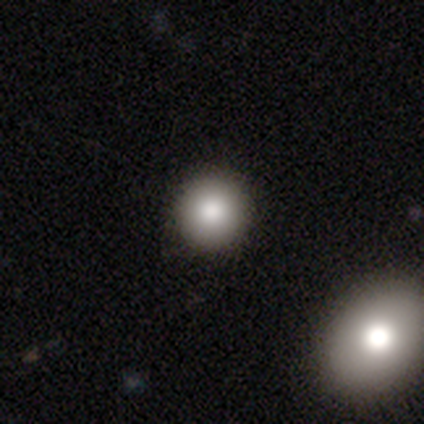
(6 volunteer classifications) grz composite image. It shows a smooth galaxy with no disk features (50%, tied with featured or disk) that is round (100%). Merging: none (100%).